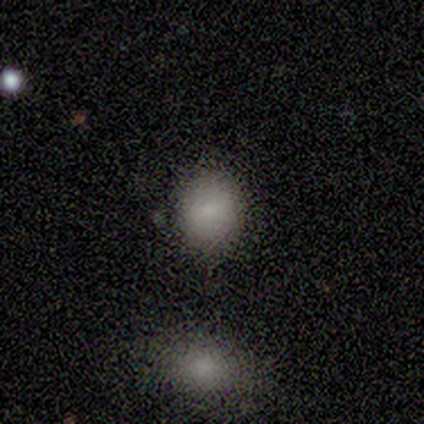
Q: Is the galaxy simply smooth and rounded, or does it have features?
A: smooth — 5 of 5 (100%).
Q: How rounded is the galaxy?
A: round — 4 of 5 (80%).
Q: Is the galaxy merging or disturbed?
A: none — 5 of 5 (100%).